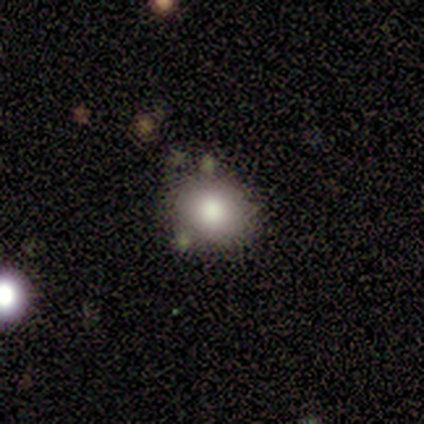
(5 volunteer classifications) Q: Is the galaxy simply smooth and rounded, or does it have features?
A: smooth — 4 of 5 (80%).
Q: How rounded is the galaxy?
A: round — 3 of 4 (75%).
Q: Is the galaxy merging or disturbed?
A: none — 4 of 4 (100%).